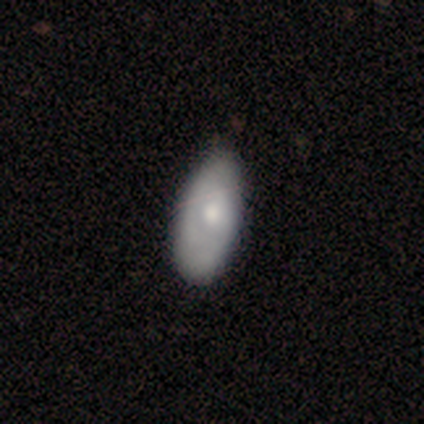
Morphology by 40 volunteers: A smooth galaxy with no disk features (52%) that is in between round and cigar-shaped (86%).

Vote fractions:
- Smooth or featured? smooth: 52% / featured or disk: 42% / star or artifact: 5%
- How rounded? in between: 86% / cigar-shaped: 14% / round: 0%
- Merging? none: 66% / minor disturbance: 18% / major disturbance: 5% / merger: 0%